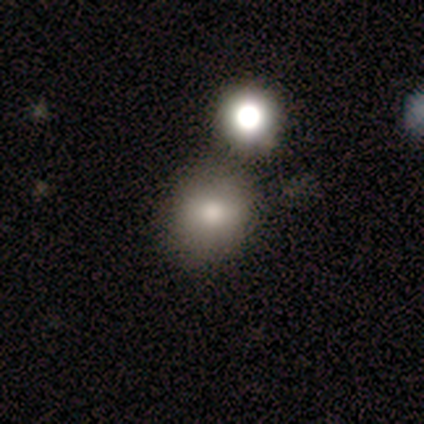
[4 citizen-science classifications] Smooth or featured: smooth — 75% (featured or disk — 25%)
How rounded: round — 100%
Merging: none — 50% (minor disturbance — 25%)